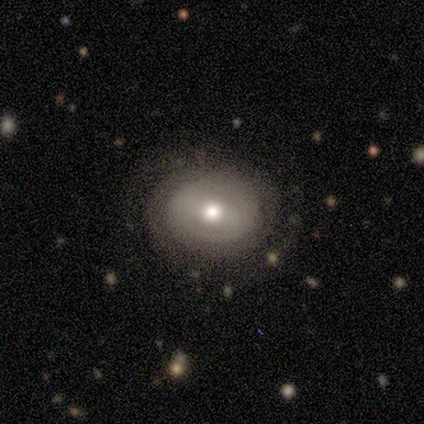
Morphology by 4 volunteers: Q: Smooth or featured?
A: smooth (50%); tied with: featured or disk (50%)
Q: How rounded?
A: round (50%); tied with: in between (50%)
Q: Merging?
A: none (50%); tied with: minor disturbance (50%)